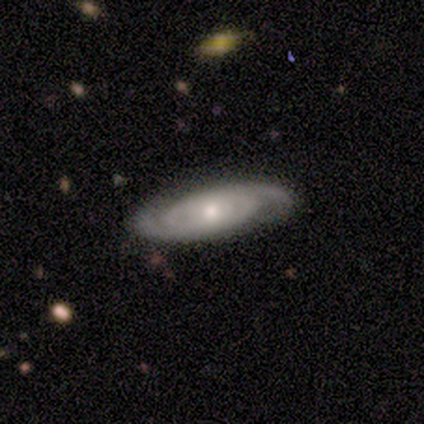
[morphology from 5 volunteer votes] A featured or disk galaxy (100%) with no bar (75%), 2 (50%) tight (100%) spiral arms (100%) and a moderate central bulge (50%, tied with small).

Vote fractions:
- Smooth or featured? featured or disk: 100% / smooth: 0% / star or artifact: 0%
- Edge-on disk? no: 80% / yes: 20%
- Bar? no: 75% / weak: 25% / strong: 0%
- Spiral arms? yes: 100% / no: 0%
- Spiral winding? tight: 100% / medium: 0% / loose: 0%
- Spiral arm count? 2: 50% / 3: 25% / can't tell: 25% / 1: 0% / 4: 0% / more than 4: 0%
- Bulge size? moderate: 50% (tied) / small: 50% (tied) / dominant: 0% / large: 0% / none: 0%
- Merging? none: 80% / minor disturbance: 20% / major disturbance: 0% / merger: 0%